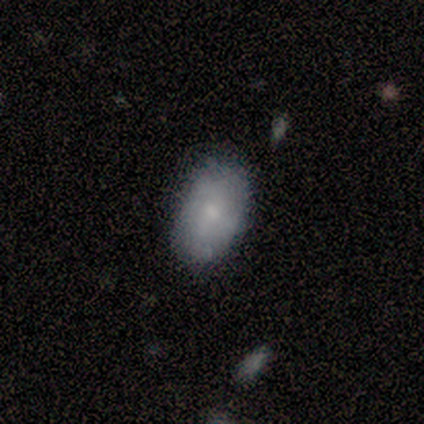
This appears to be a smooth galaxy with no disk features (83%) that is in between round and cigar-shaped (100%). Merging: none (83%).